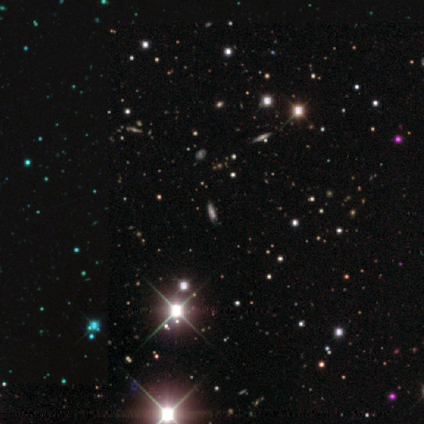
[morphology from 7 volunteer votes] Overall: star or artifact (86%).